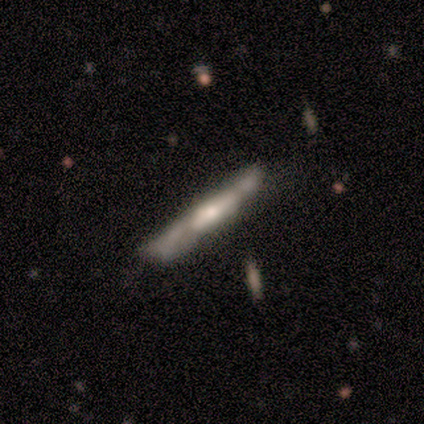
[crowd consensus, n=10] Smooth or featured?
  - smooth: 50% * (tied)
  - featured or disk: 50% * (tied)
  - star or artifact: 0%
How rounded?
  - cigar-shaped: 100% *
  - round: 0%
  - in between: 0%
Merging?
  - none: 50% *
  - minor disturbance: 40%
  - merger: 10%
  - major disturbance: 0%